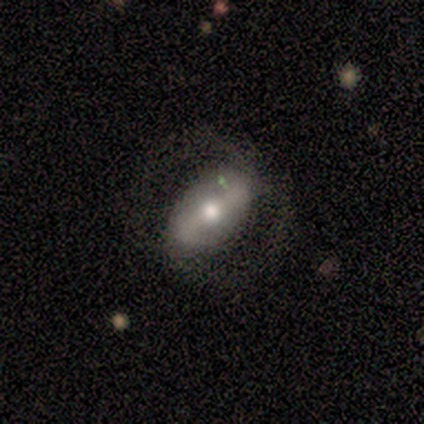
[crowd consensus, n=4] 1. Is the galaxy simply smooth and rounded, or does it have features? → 100% featured or disk, 0% smooth, 0% star or artifact.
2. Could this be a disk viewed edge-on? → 100% no, 0% yes.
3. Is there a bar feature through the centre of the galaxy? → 50% strong (tied), 50% weak (tied), 0% no.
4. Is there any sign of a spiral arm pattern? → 50% yes (tied), 50% no (tied).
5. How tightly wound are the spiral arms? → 50% medium (tied), 50% loose (tied), 0% tight.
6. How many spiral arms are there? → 50% 2 (tied), 50% can't tell (tied), 0% 1, 0% 3, 0% 4, 0% more than 4.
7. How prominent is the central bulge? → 50% moderate, 25% large, 25% small, 0% dominant, 0% none.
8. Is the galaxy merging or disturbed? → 50% none (tied), 50% major disturbance (tied), 0% minor disturbance, 0% merger.